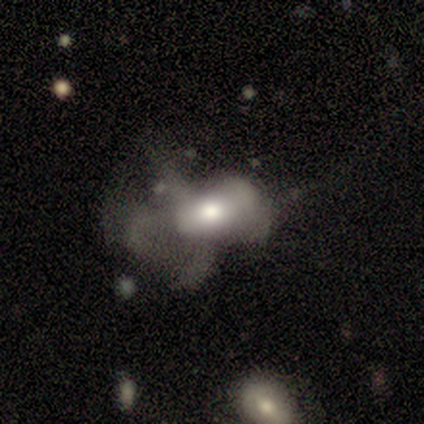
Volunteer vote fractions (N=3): smooth-or-featured: smooth: 33% (tied) | featured or disk: 33% (tied) | star or artifact: 33% (tied)
  how-rounded: in between: 100% | round: 0% | cigar-shaped: 0%
  merging: major disturbance: 100% | none: 0% | minor disturbance: 0% | merger: 0%